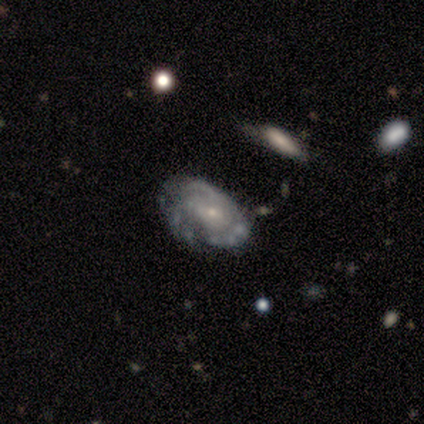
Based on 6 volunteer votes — Smooth or featured? featured or disk (100%)
Edge-on disk? no (100%)
Bar? weak (50%, tied with no)
Spiral arms? yes (83%)
Spiral winding? tight (80%)
Spiral arm count? 3 (40%, tied with can't tell)
Bulge size? small (83%)
Merging? none (67%)